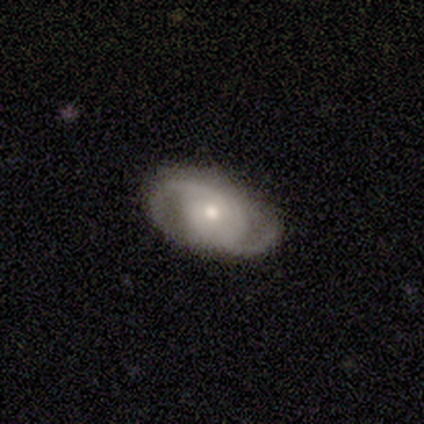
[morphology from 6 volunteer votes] A featured or disk galaxy (100%) with no bar (100%), 2 (67%) tight (50%) spiral arms (100%) and a moderate central bulge (67%). Merging: none (100%).